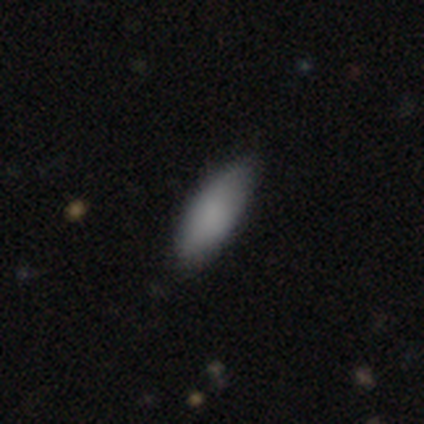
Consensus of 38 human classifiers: A smooth galaxy with no disk features (89%) that is in between round and cigar-shaped (74%).

Vote fractions:
- Smooth or featured? smooth: 89% / featured or disk: 8% / star or artifact: 3%
- How rounded? in between: 74% / cigar-shaped: 26% / round: 0%
- Merging? none: 81% / minor disturbance: 16% / major disturbance: 3% / merger: 0%